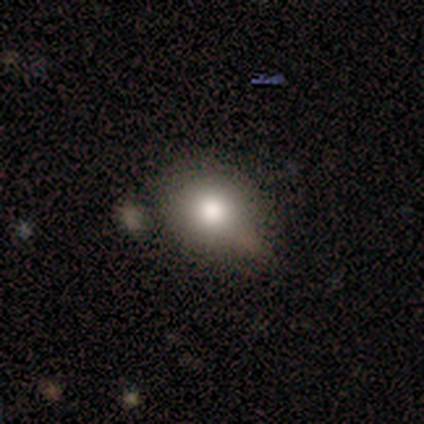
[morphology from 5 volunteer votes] Overall: smooth (100%). How rounded: round (60%; in between 40%). Merging: none (80%).